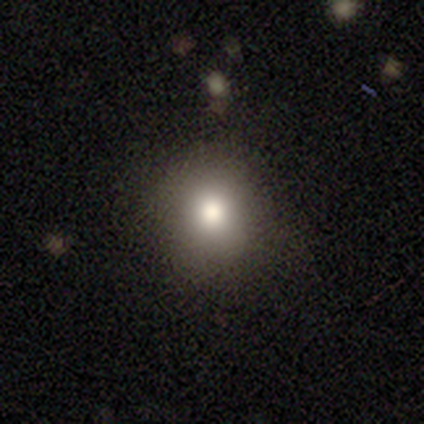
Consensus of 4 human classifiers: smooth 75%, star or artifact 25%, featured or disk 0%. Down the decision tree: how rounded — round (67%); merging — none (100%).